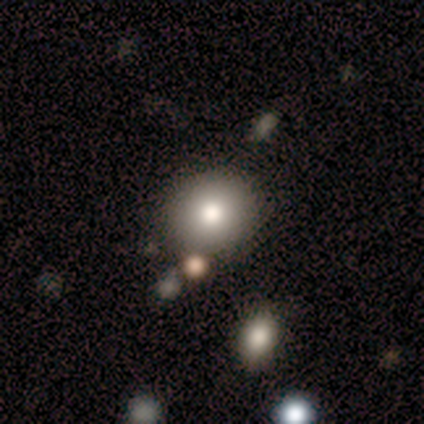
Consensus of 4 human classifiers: Smooth or featured?
  - smooth: 75% *
  - featured or disk: 25%
  - star or artifact: 0%
How rounded?
  - round: 100% *
  - in between: 0%
  - cigar-shaped: 0%
Merging?
  - none: 75% *
  - major disturbance: 25%
  - minor disturbance: 0%
  - merger: 0%